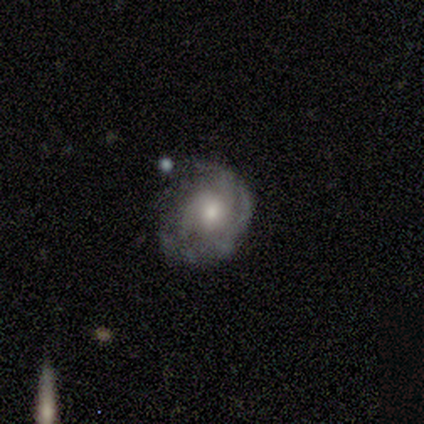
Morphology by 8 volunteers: A featured or disk galaxy (88%) with no bar (71%), 4 (40%) tight (60%) spiral arms (71%) and a moderate central bulge (57%).

Vote fractions:
- Smooth or featured? featured or disk: 88% / smooth: 12% / star or artifact: 0%
- Edge-on disk? no: 100% / yes: 0%
- Bar? no: 71% / weak: 29% / strong: 0%
- Spiral arms? yes: 71% / no: 29%
- Spiral winding? tight: 60% / medium: 40% / loose: 0%
- Spiral arm count? 4: 40% / 2: 20% / more than 4: 20% / can't tell: 20% / 1: 0% / 3: 0%
- Bulge size? moderate: 57% / small: 29% / none: 14% / dominant: 0% / large: 0%
- Merging? none: 50% / minor disturbance: 38% / major disturbance: 12% / merger: 0%